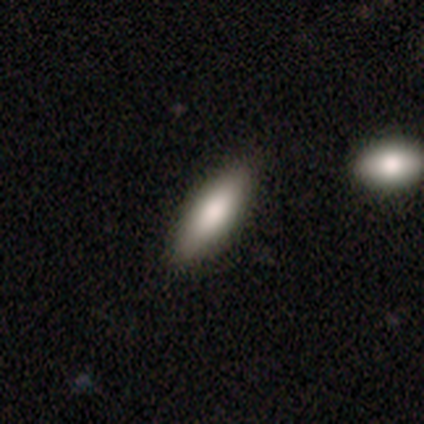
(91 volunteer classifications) smooth-or-featured: smooth: 80% | featured or disk: 14% | star or artifact: 5%
  how-rounded: in between: 52% | cigar-shaped: 48% | round: 0%
  merging: none: 84% | minor disturbance: 10% | major disturbance: 3% | merger: 2%